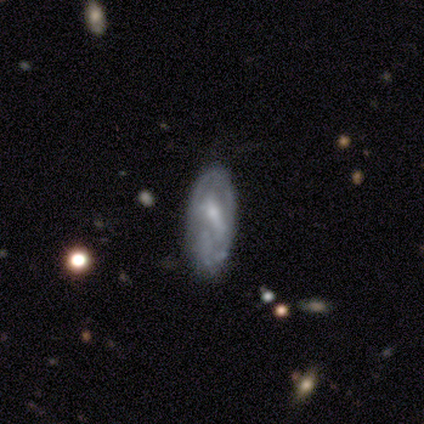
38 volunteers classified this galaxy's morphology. Smooth or featured: featured or disk — 74% (smooth — 21%)
Edge-on disk: no — 86% (yes — 14%)
Bar: weak — 50% (no — 38%)
Spiral arms: yes — 54% (no — 46%)
Spiral winding: tight — 54% (medium — 31%)
Spiral arm count: 2 — 46% (can't tell — 31%)
Bulge size: small — 50% (moderate — 33%)
Merging: none — 61% (minor disturbance — 22%)